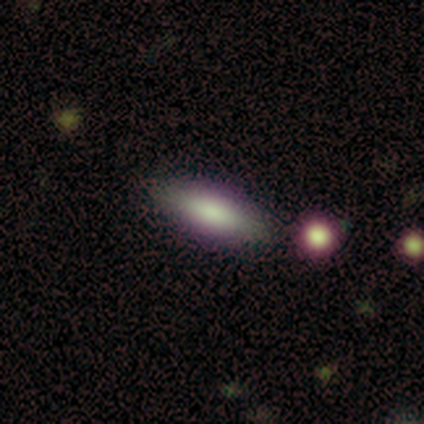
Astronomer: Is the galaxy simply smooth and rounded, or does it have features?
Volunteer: smooth — 75%.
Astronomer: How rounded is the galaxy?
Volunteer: cigar-shaped — 67%.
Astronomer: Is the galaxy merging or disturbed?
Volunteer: none — 75%.